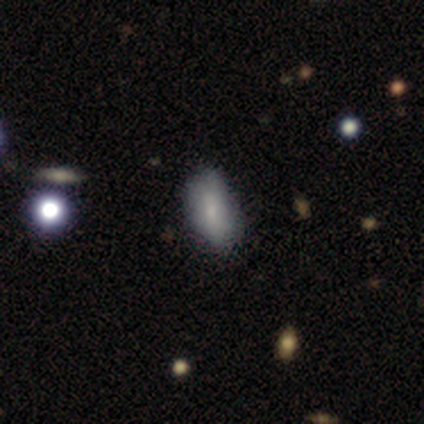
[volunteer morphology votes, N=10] smooth 80%, featured or disk 20%, star or artifact 0%. Down the decision tree: how rounded — in between (100%); merging — none (90%).